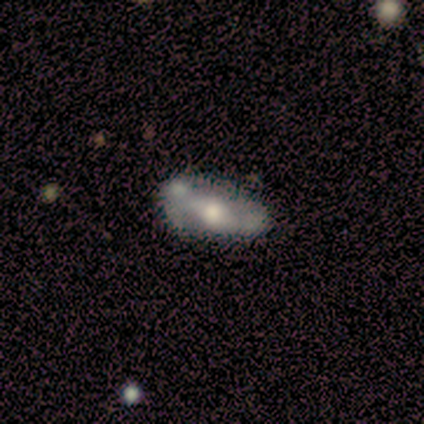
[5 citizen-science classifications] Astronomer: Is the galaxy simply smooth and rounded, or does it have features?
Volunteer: featured or disk — 80%.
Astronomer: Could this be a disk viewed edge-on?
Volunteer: no — 75%.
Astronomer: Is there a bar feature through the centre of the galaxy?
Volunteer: no — 67%.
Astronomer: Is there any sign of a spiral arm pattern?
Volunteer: no — 67%.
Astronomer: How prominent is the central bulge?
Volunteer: moderate — 100%.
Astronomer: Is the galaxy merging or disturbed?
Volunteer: none — 40%, tied with minor disturbance at 40%.